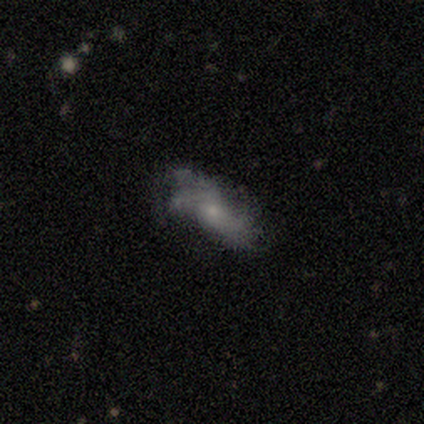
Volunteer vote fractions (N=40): Q: Smooth or featured?
A: featured or disk (65%); runner-up: smooth (30%)
Q: Edge-on disk?
A: no (92%); runner-up: yes (8%)
Q: Bar?
A: no (67%); runner-up: weak (21%)
Q: Spiral arms?
A: yes (92%); runner-up: no (8%)
Q: Spiral winding?
A: loose (73%); runner-up: tight (23%)
Q: Spiral arm count?
A: can't tell (32%); runner-up: 2 (23%)
Q: Bulge size?
A: small (58%); runner-up: moderate (29%)
Q: Merging?
A: none (50%); runner-up: minor disturbance (37%)